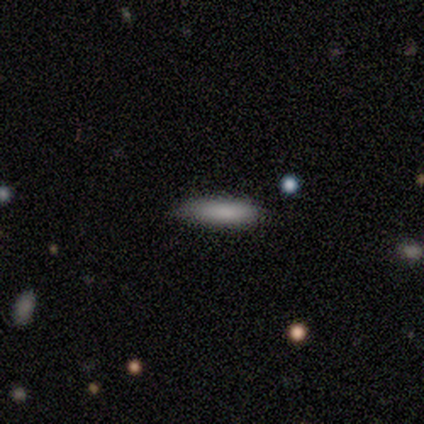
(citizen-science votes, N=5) Smooth or featured?
  - smooth: 80% *
  - featured or disk: 20%
  - star or artifact: 0%
How rounded?
  - in between: 75% *
  - cigar-shaped: 25%
  - round: 0%
Merging?
  - none: 80% *
  - minor disturbance: 20%
  - major disturbance: 0%
  - merger: 0%